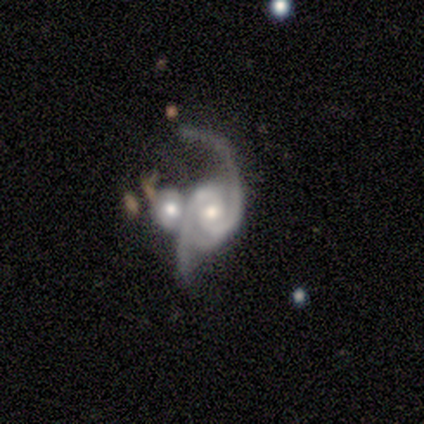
A featured or disk galaxy (100%) with no bar (71%), 2 (100%) medium (43%, tied with loose) spiral arms (100%) and a moderate central bulge (86%).

Vote fractions:
- Smooth or featured? featured or disk: 100% / smooth: 0% / star or artifact: 0%
- Edge-on disk? no: 100% / yes: 0%
- Bar? no: 71% / weak: 29% / strong: 0%
- Spiral arms? yes: 100% / no: 0%
- Spiral winding? medium: 43% (tied) / loose: 43% (tied) / tight: 14%
- Spiral arm count? 2: 100% / 1: 0% / 3: 0% / 4: 0% / more than 4: 0% / can't tell: 0%
- Bulge size? moderate: 86% / small: 14% / dominant: 0% / large: 0% / none: 0%
- Merging? merger: 86% / major disturbance: 14% / none: 0% / minor disturbance: 0%